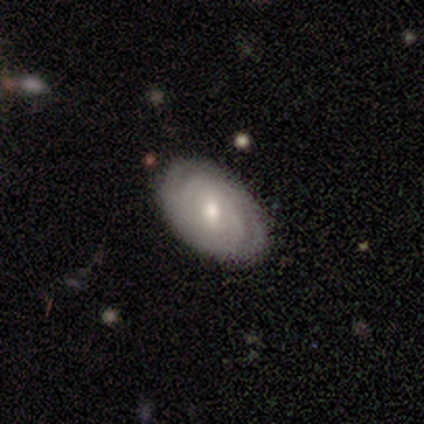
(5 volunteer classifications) Q: Smooth or featured?
A: featured or disk (80%); runner-up: smooth (20%)
Q: Edge-on disk?
A: no (75%); runner-up: yes (25%)
Q: Bar?
A: no (100%)
Q: Spiral arms?
A: yes (100%)
Q: Spiral winding?
A: tight (67%); runner-up: medium (33%)
Q: Spiral arm count?
A: 2 (67%); runner-up: can't tell (33%)
Q: Bulge size?
A: moderate (67%); runner-up: small (33%)
Q: Merging?
A: none (100%)